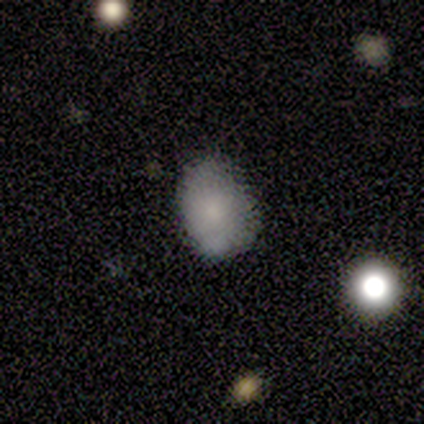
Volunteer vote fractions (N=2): Smooth or featured? smooth (100%)
How rounded? round (50%, tied with in between)
Merging? none (100%)